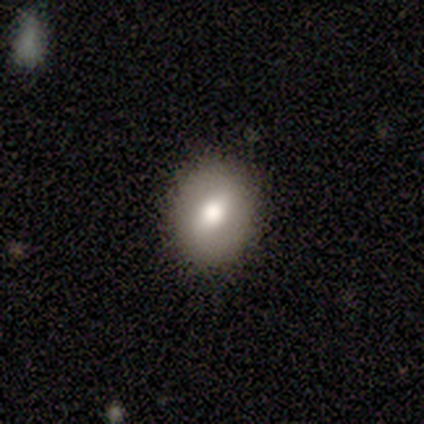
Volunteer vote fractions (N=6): Overall: smooth (50%; star or artifact 33%). How rounded: round (100%). Merging: none (100%).